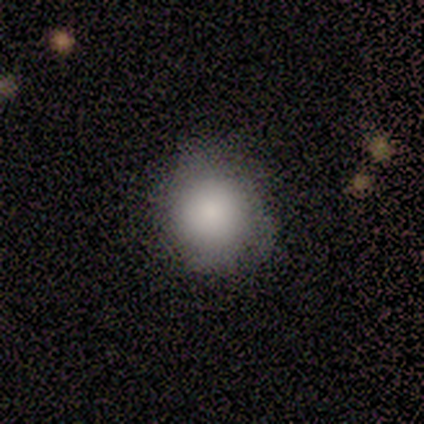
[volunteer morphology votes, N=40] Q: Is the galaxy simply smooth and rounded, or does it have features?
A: smooth — 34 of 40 (85%).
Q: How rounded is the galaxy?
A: round — 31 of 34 (91%).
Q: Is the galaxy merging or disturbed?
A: none — 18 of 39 (46%).